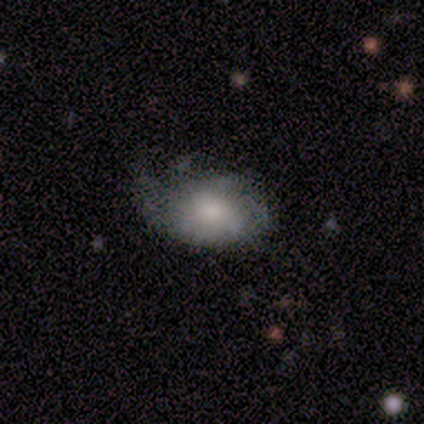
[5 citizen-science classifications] Morphology: type=smooth (60%); roundness=in between (100%); merging=none (40%, tied with major disturbance).